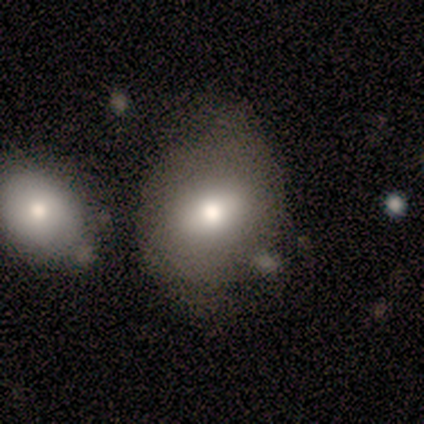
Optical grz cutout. It shows a smooth galaxy with no disk features (60%) that is round (100%). Merging: minor disturbance (75%).